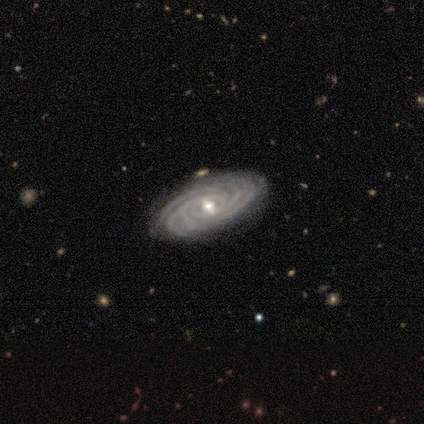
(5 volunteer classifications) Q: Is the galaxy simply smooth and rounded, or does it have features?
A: featured or disk — 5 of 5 (100%).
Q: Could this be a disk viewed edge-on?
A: no — 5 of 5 (100%).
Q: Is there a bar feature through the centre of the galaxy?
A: weak — 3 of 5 (60%).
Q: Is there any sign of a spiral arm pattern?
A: yes — 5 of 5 (100%).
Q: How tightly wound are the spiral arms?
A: tight — 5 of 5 (100%).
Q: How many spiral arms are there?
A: more than 4 — 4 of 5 (80%).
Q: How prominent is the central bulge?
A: moderate — 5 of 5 (100%).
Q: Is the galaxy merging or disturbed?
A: none — 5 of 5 (100%).